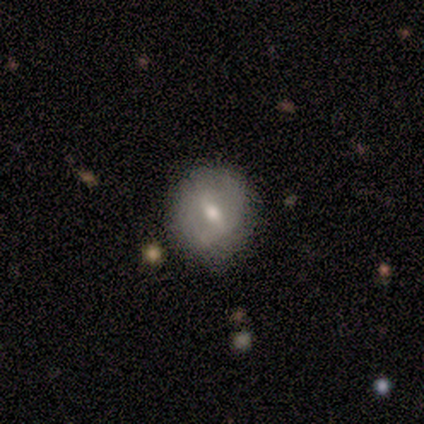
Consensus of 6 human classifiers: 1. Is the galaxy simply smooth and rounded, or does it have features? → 67% smooth, 17% featured or disk, 17% star or artifact.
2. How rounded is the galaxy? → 100% round, 0% in between, 0% cigar-shaped.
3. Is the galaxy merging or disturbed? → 60% none, 20% minor disturbance, 20% merger, 0% major disturbance.